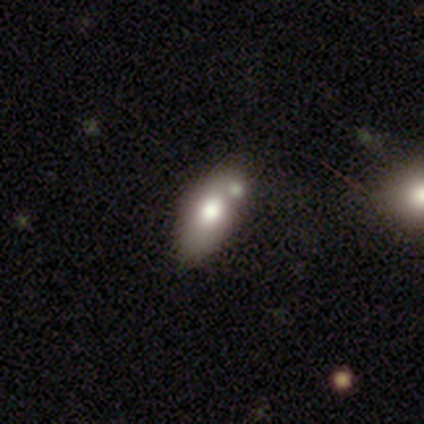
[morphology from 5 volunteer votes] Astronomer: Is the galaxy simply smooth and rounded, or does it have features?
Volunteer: smooth — 60% (runner-up: featured or disk, 40%).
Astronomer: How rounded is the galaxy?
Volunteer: in between — 67%.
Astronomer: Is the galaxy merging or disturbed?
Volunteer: minor disturbance — 60%.